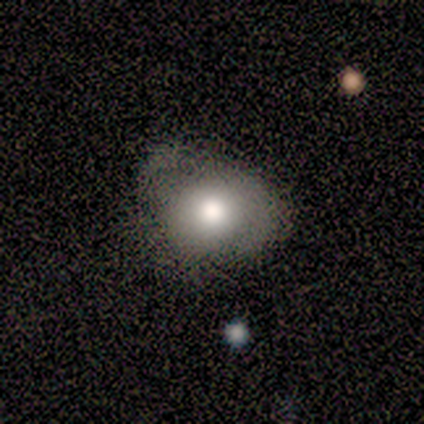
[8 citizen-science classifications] Smooth or featured: smooth — 62% (featured or disk — 38%)
How rounded: in between — 60% (round — 40%)
Merging: none — 38% (tied with minor disturbance — 38%)